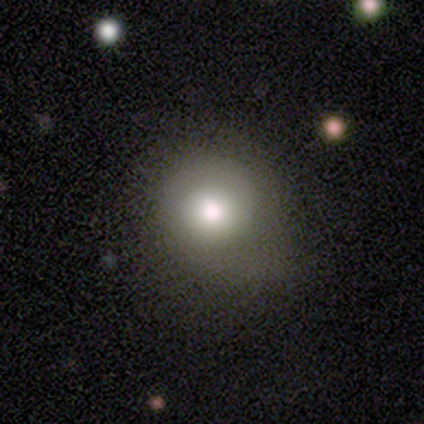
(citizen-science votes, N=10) A smooth galaxy with no disk features (80%) that is round (100%).

Vote fractions:
- Smooth or featured? smooth: 80% / star or artifact: 20% / featured or disk: 0%
- How rounded? round: 100% / in between: 0% / cigar-shaped: 0%
- Merging? none: 62% / minor disturbance: 38% / major disturbance: 0% / merger: 0%